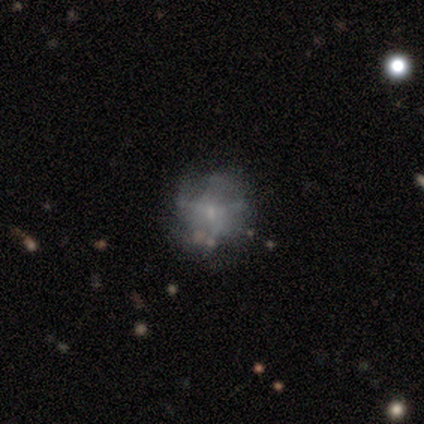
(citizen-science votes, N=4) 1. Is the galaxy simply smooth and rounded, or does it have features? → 75% smooth, 25% featured or disk, 0% star or artifact.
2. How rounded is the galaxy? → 100% round, 0% in between, 0% cigar-shaped.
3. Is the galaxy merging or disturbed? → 75% none, 25% major disturbance, 0% minor disturbance, 0% merger.